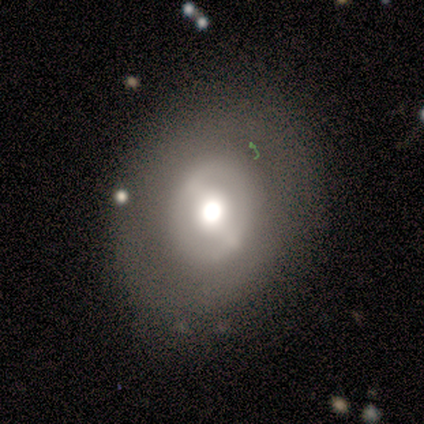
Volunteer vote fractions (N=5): This appears to be a featured or disk galaxy (60%) with a strong bar (67%), no spiral arms (100%) and a moderate central bulge (100%). Merging: none (80%).